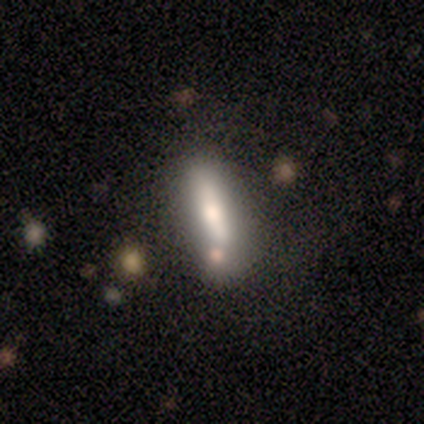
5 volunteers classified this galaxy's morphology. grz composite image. It shows a smooth galaxy with no disk features (60%) that is in between round and cigar-shaped (100%). Merging: none (50%).